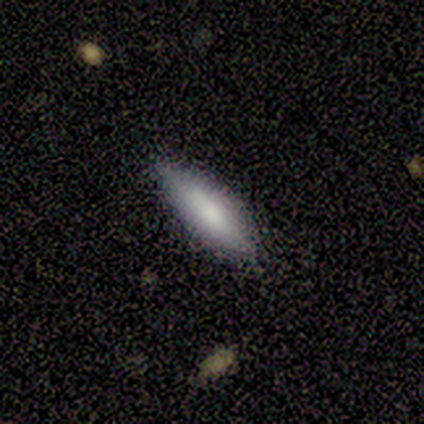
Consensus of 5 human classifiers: Volunteers were most divided on "how rounded": cigar-shaped: 75%, in between: 25%, round: 0%. More confident: smooth or featured — smooth (80%); merging — none (80%).